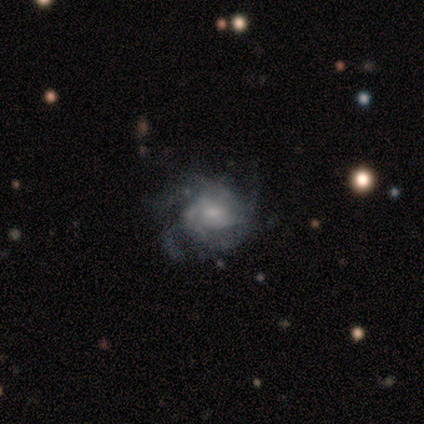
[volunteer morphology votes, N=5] This is clearly a featured or disk galaxy (100%). It is clearly not viewed edge-on (80%). Bar: likely no (75%). Spiral arm pattern: likely yes (75%). Spiral arm count: likely can't tell (67%). Spiral winding: likely medium (67%). Central bulge: possibly small (50%). Merging: marginally none (40%, tied with minor disturbance).